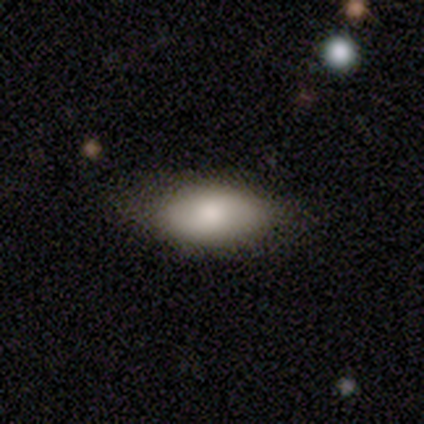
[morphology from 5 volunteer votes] A smooth galaxy with no disk features (100%) that is in between round and cigar-shaped (100%).

Vote fractions:
- Smooth or featured? smooth: 100% / featured or disk: 0% / star or artifact: 0%
- How rounded? in between: 100% / round: 0% / cigar-shaped: 0%
- Merging? none: 80% / minor disturbance: 20% / major disturbance: 0% / merger: 0%